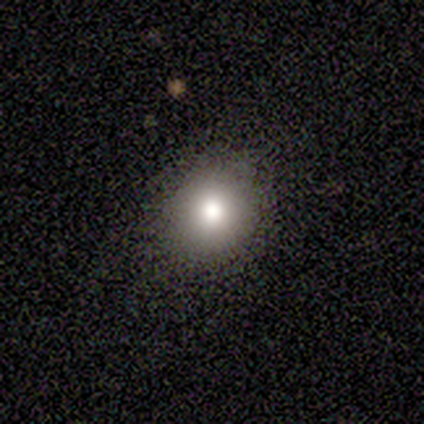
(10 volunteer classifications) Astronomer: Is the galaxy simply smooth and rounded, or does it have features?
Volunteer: smooth — 80%.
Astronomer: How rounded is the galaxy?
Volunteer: round — 75%.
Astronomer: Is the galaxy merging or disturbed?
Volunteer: none — 80%.